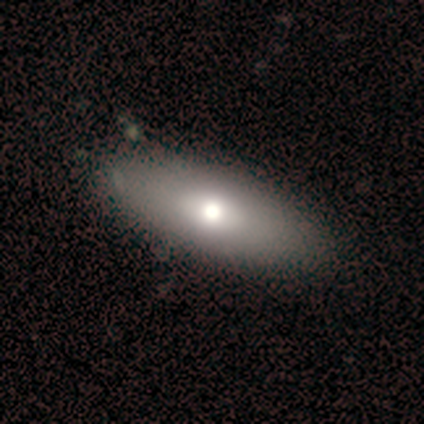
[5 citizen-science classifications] smooth-or-featured: smooth: 60% | featured or disk: 40% | star or artifact: 0%
  how-rounded: in between: 100% | round: 0% | cigar-shaped: 0%
  merging: none: 100% | minor disturbance: 0% | major disturbance: 0% | merger: 0%